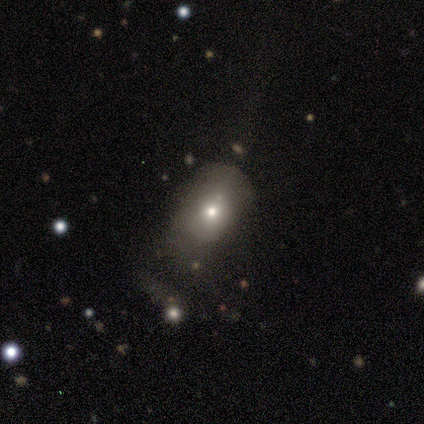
Smooth or featured?
  - smooth: 60% *
  - featured or disk: 20%
  - star or artifact: 20%
How rounded?
  - in between: 100% *
  - round: 0%
  - cigar-shaped: 0%
Merging?
  - minor disturbance: 75% *
  - none: 25%
  - major disturbance: 0%
  - merger: 0%